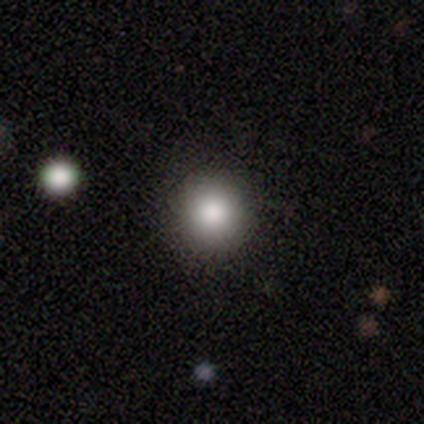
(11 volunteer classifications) smooth 82%, featured or disk 9%, star or artifact 9%. Down the decision tree: how rounded — round (100%); merging — none (100%).